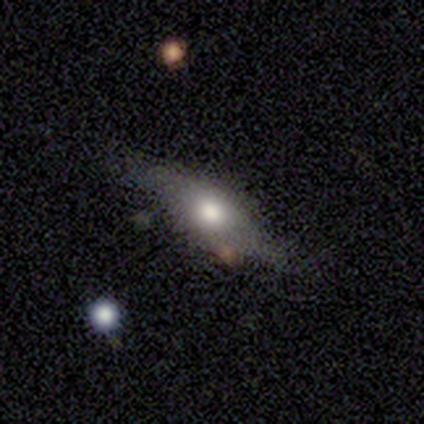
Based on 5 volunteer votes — Smooth or featured? featured or disk (60%)
Edge-on disk? yes (67%)
Edge-on bulge? boxy (100%)
Merging? none (75%)